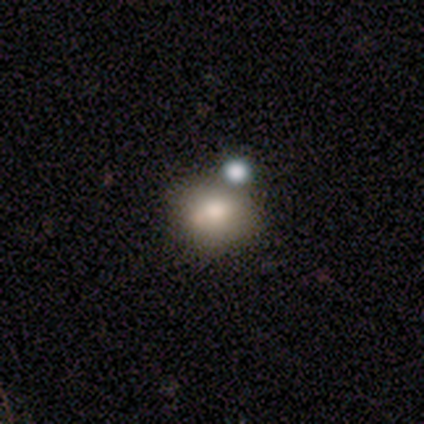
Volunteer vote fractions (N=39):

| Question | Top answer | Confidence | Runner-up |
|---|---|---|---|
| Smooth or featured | smooth | 62% | featured or disk (23%) |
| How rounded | round | 71% | in between (29%) |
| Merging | none | 52% | merger (27%) |